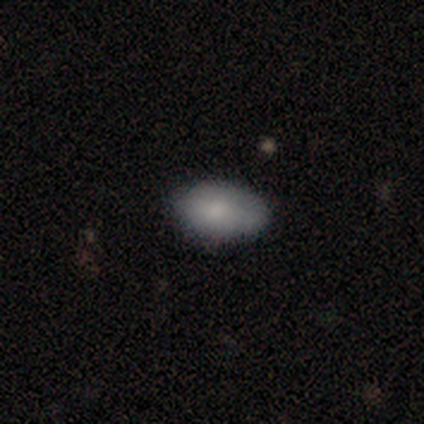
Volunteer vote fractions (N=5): smooth 80%, featured or disk 20%, star or artifact 0%. Down the decision tree: how rounded — in between (100%); merging — none (100%).